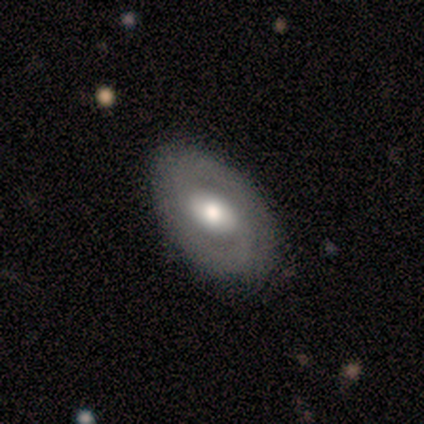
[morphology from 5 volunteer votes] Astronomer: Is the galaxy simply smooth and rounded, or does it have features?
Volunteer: featured or disk — 100%.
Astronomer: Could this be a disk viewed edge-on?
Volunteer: no — 80%.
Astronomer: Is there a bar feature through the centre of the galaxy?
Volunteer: no — 50%.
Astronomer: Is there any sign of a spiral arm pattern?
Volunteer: yes — 75%.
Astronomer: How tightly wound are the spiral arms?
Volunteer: tight — 33%, tied with medium and loose at 33%.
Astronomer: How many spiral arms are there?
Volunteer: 1 — 33%, tied with 3 and can't tell at 33%.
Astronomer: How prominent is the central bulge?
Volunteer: moderate — 75%.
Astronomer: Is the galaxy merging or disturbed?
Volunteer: none — 60%.